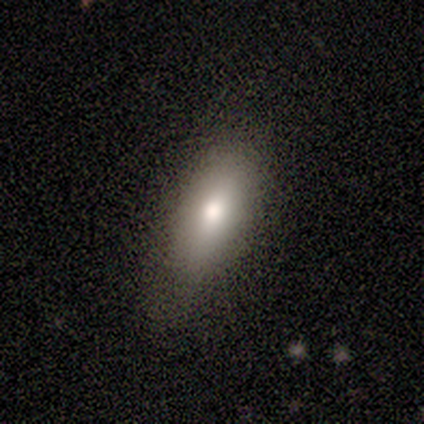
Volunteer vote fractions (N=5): smooth_or_featured: smooth (p=0.60) [alt: featured or disk p=0.20]
how_rounded: in between (p=0.67) [alt: cigar-shaped p=0.33]
merging: none (p=0.75) [alt: minor disturbance p=0.25]